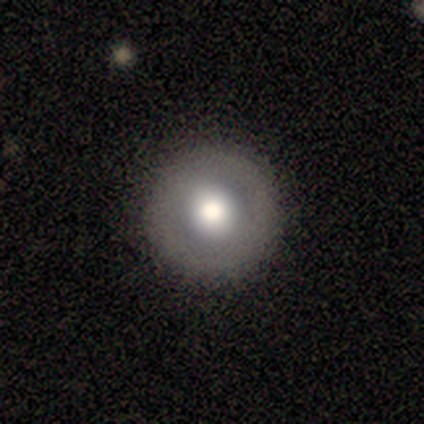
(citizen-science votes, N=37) Smooth or featured? 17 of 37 (46%) said smooth. How rounded? 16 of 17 (94%) said round. Merging? 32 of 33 (97%) said none.